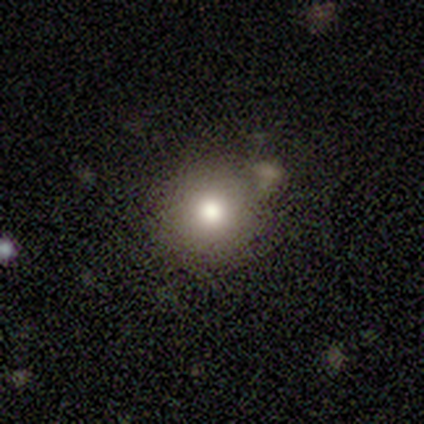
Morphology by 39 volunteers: smooth_or_featured: smooth (p=0.77) [alt: star or artifact p=0.15]
how_rounded: round (p=0.93) [alt: in between p=0.07]
merging: none (p=0.67) [alt: minor disturbance p=0.15]